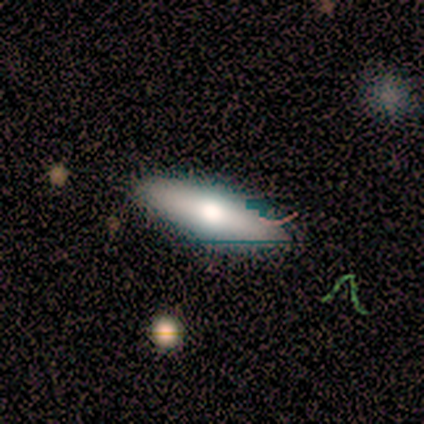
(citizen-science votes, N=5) Smooth or featured?
  - smooth: 80% *
  - featured or disk: 20%
  - star or artifact: 0%
How rounded?
  - in between: 50% * (tied)
  - cigar-shaped: 50% * (tied)
  - round: 0%
Merging?
  - none: 80% *
  - minor disturbance: 20%
  - major disturbance: 0%
  - merger: 0%